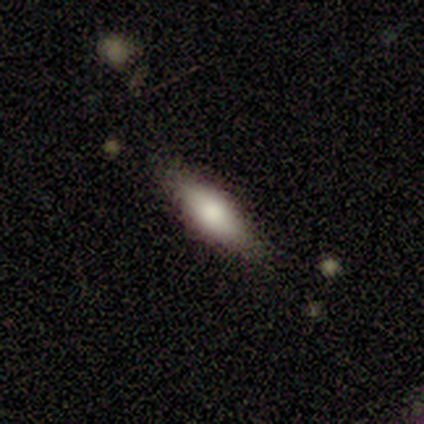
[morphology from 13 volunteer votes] smooth_or_featured: smooth (p=0.77) [alt: featured or disk p=0.15]
how_rounded: in between (p=0.50) [alt: cigar-shaped p=0.40]
merging: none (p=0.83) [alt: minor disturbance p=0.08]